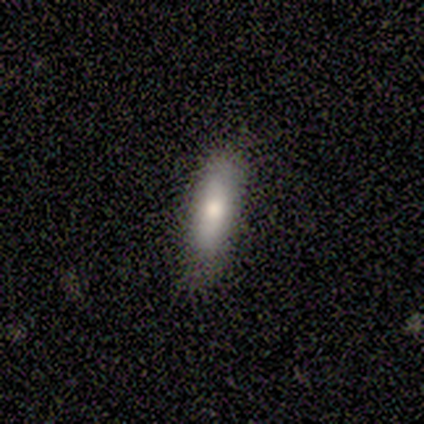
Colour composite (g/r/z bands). It shows a smooth galaxy with no disk features (100%) that is cigar-shaped (80%). Merging: none (60%).